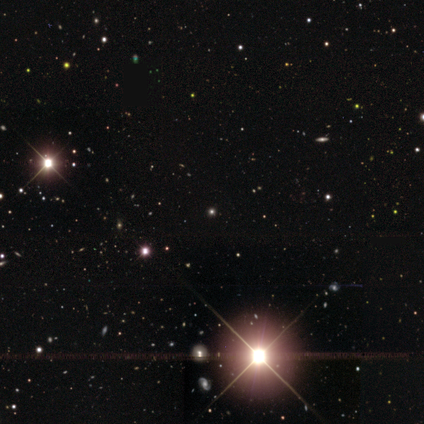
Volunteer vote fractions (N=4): Smooth or featured? star or artifact (75%)